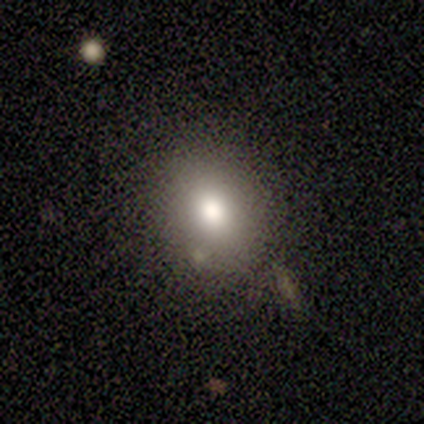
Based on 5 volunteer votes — smooth 60%, featured or disk 20%, star or artifact 20%. Down the decision tree: how rounded — in between (67%); merging — none (100%).